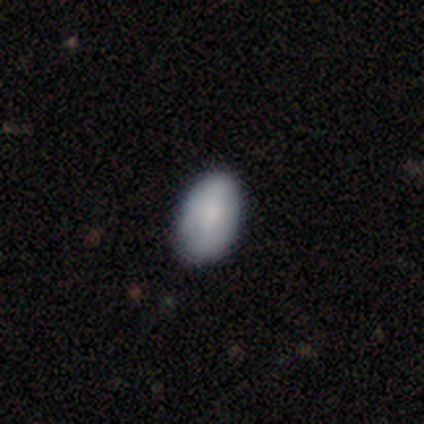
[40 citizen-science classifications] Smooth or featured? smooth (88%)
How rounded? in between (89%)
Merging? none (82%)